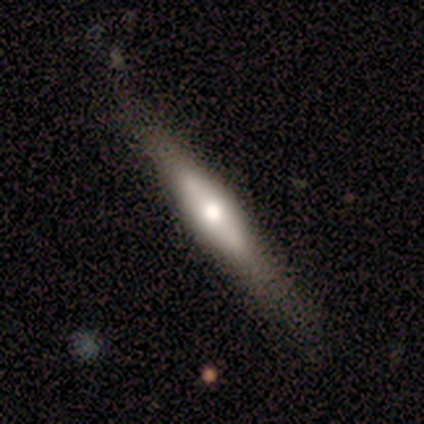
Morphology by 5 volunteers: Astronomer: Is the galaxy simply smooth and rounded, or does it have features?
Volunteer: featured or disk — 100%.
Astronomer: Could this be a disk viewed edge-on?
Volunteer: yes — 60% (runner-up: no, 40%).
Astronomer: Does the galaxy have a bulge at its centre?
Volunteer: rounded — 100%.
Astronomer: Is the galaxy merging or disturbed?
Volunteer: none — 60% (runner-up: minor disturbance, 40%).